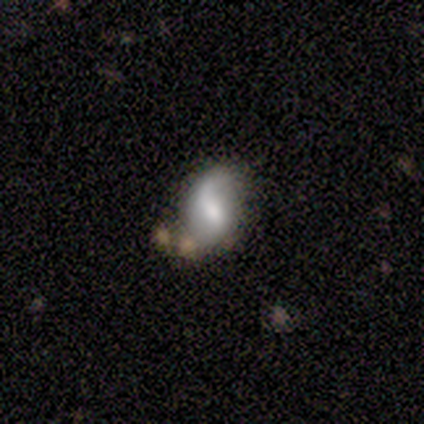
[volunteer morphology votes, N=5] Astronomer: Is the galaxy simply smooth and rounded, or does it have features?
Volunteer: smooth — 60%.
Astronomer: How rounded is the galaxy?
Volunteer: in between — 67%.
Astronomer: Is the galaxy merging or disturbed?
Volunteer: none — 25%, tied with minor disturbance, major disturbance and merger at 25%.